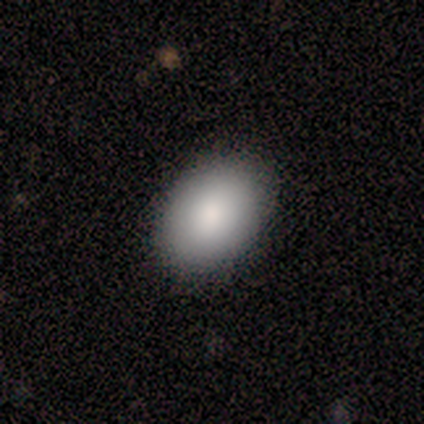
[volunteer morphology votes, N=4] Overall: smooth (50%; featured or disk 25%). How rounded: round (50%, tied with in between). Merging: none (67%; minor disturbance 33%).